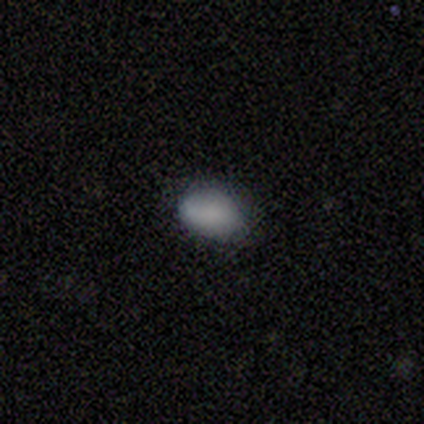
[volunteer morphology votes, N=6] Smooth or featured? 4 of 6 (67%) said smooth. How rounded? 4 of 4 (100%) said in between. Merging? 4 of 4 (100%) said none.